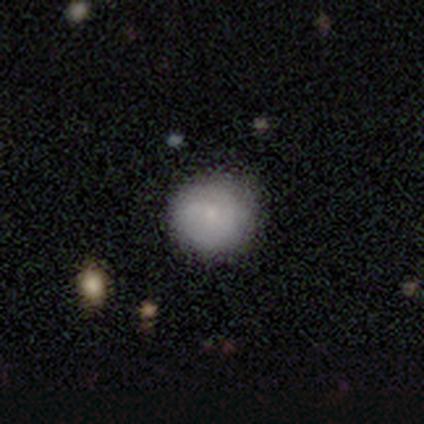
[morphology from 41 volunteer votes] Smooth or featured? smooth (78%)
How rounded? round (97%)
Merging? none (69%)